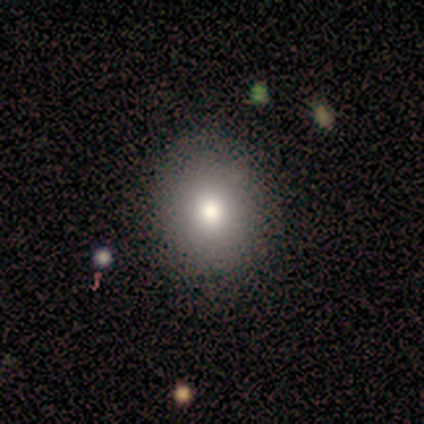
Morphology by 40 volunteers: A smooth galaxy with no disk features (90%) that is round (58%).

Vote fractions:
- Smooth or featured? smooth: 90% / featured or disk: 8% / star or artifact: 2%
- How rounded? round: 58% / in between: 42% / cigar-shaped: 0%
- Merging? none: 67% / minor disturbance: 5% / merger: 3% / major disturbance: 0%